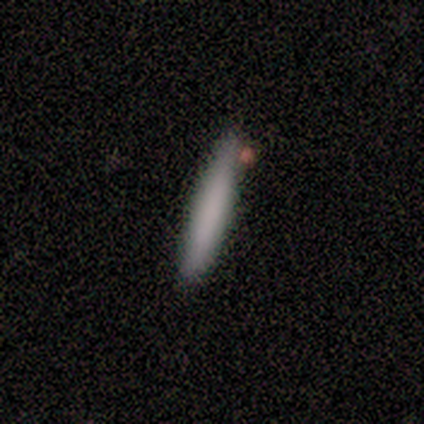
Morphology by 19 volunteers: Q: Smooth or featured?
A: smooth (89%); runner-up: featured or disk (11%)
Q: How rounded?
A: cigar-shaped (100%)
Q: Merging?
A: none (68%); runner-up: minor disturbance (21%)